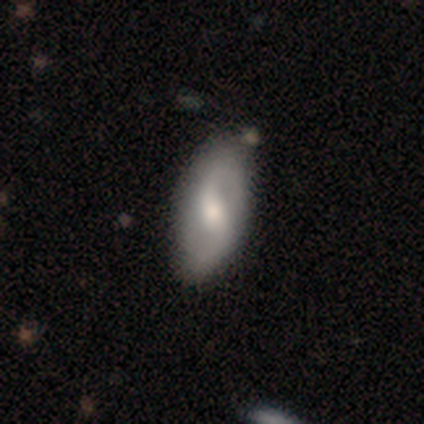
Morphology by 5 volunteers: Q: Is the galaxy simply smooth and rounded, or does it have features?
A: featured or disk — 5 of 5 (100%).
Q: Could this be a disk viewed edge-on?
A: no — 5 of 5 (100%).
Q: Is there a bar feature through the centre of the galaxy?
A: weak — 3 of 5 (60%).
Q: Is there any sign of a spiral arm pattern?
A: yes — 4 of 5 (80%).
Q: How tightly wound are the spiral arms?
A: loose — 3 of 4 (75%).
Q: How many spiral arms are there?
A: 2 — 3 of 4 (75%).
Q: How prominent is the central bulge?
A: moderate — 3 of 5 (60%).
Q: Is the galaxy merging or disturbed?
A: none — 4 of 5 (80%).